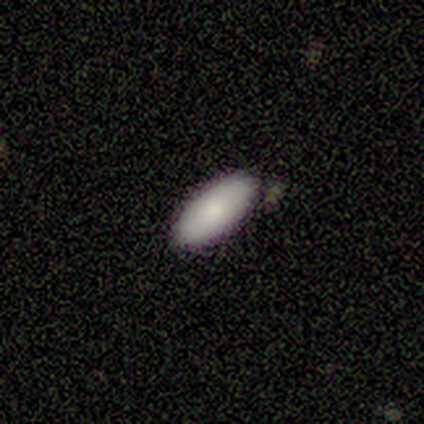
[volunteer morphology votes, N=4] smooth-or-featured: smooth: 75% | featured or disk: 25% | star or artifact: 0%
  how-rounded: in between: 100% | round: 0% | cigar-shaped: 0%
  merging: none: 50% (tied) | minor disturbance: 50% (tied) | major disturbance: 0% | merger: 0%